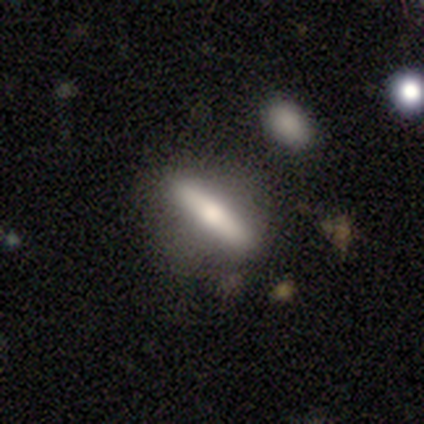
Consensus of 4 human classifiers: Smooth or featured? smooth (100%)
How rounded? in between (50%, tied with cigar-shaped)
Merging? none (100%)